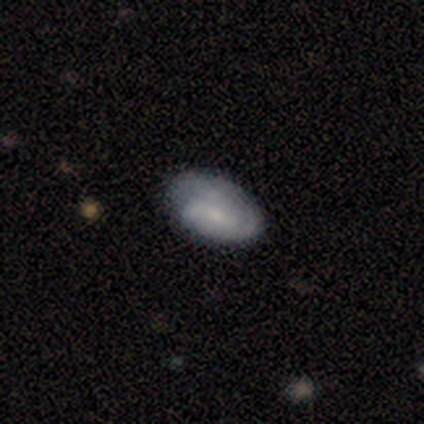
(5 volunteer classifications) Smooth or featured: smooth — 60% (featured or disk — 40%)
How rounded: in between — 100%
Merging: minor disturbance — 80% (none — 20%)